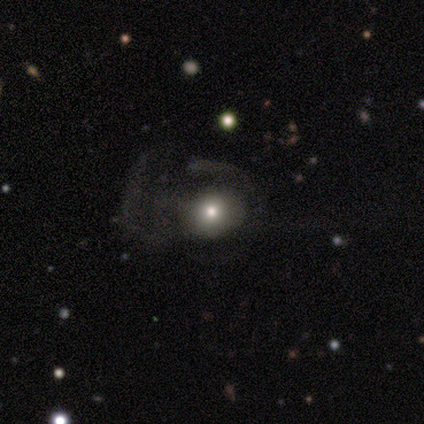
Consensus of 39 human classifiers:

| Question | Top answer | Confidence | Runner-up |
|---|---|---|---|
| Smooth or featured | smooth | 54% | featured or disk (33%) |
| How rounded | round | 57% | in between (43%) |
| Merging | major disturbance | 68% | none (21%) |